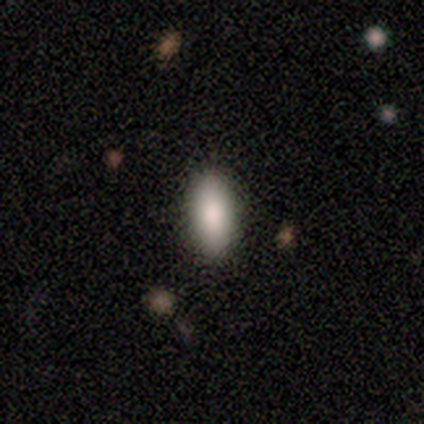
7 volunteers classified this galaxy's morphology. smooth 71%, featured or disk 14%, star or artifact 14%. Down the decision tree: how rounded — in between (100%); merging — none (100%).